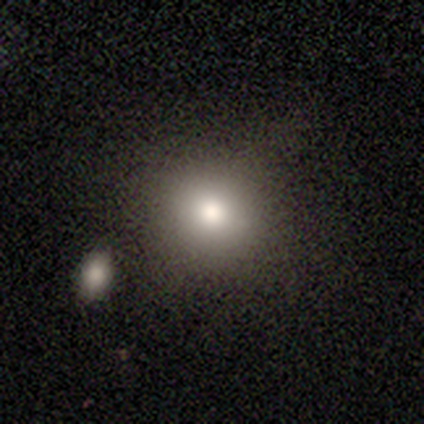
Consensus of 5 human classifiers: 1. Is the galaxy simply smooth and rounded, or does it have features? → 100% smooth, 0% featured or disk, 0% star or artifact.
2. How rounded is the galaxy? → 80% round, 20% in between, 0% cigar-shaped.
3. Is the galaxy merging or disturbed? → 80% none, 20% minor disturbance, 0% major disturbance, 0% merger.